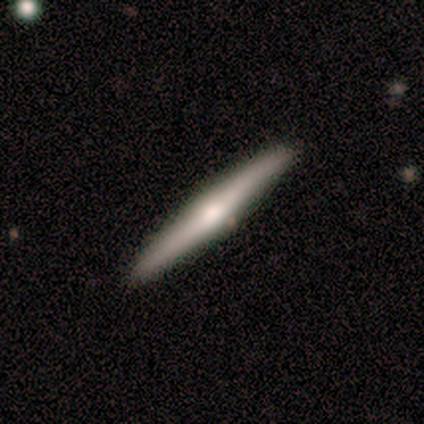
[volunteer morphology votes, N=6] A featured or disk galaxy (67%) viewed edge-on (100%) with a rounded central bulge (100%).

Vote fractions:
- Smooth or featured? featured or disk: 67% / smooth: 33% / star or artifact: 0%
- Edge-on disk? yes: 100% / no: 0%
- Edge-on bulge? rounded: 100% / boxy: 0% / none: 0%
- Merging? none: 100% / minor disturbance: 0% / major disturbance: 0% / merger: 0%